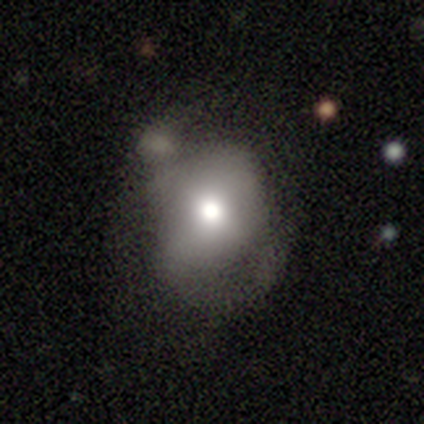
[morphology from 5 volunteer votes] A smooth galaxy with no disk features (60%) that is in between round and cigar-shaped (67%). Merging: major disturbance (60%).